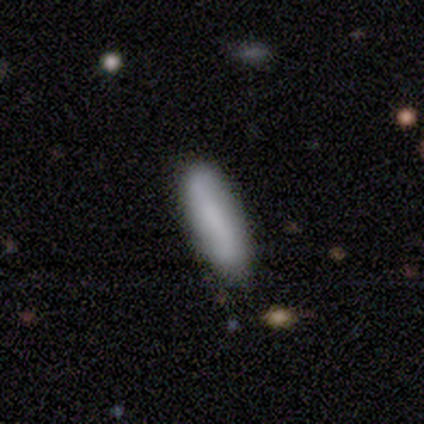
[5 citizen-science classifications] smooth-or-featured: smooth: 60% | featured or disk: 40% | star or artifact: 0%
  how-rounded: cigar-shaped: 67% | in between: 33% | round: 0%
  merging: none: 100% | minor disturbance: 0% | major disturbance: 0% | merger: 0%